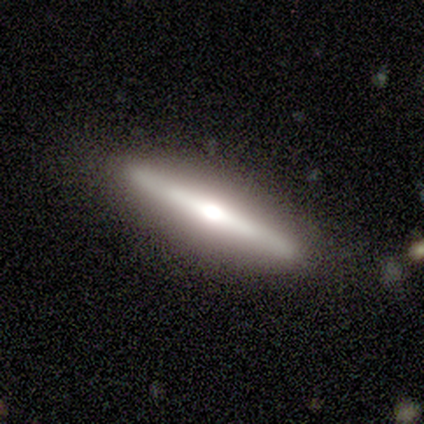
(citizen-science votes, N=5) smooth-or-featured: featured or disk: 100% | smooth: 0% | star or artifact: 0%
  disk-edge-on: yes: 100% | no: 0%
    edge-on-bulge: rounded: 80% | none: 20% | boxy: 0%
  merging: none: 60% | minor disturbance: 40% | major disturbance: 0% | merger: 0%